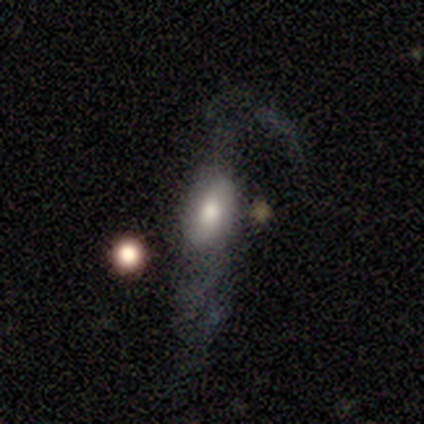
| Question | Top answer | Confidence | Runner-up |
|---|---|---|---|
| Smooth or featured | featured or disk | 49% | smooth (46%) |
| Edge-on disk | no | 74% | yes (26%) |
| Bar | no | 50% | weak (29%) |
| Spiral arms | yes | 57% | no (43%) |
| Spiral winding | loose | 75% | medium (25%) |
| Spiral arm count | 2 | 50% | can't tell (38%) |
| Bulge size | moderate | 57% | large (36%) |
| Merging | major disturbance | 57% | minor disturbance (19%) |